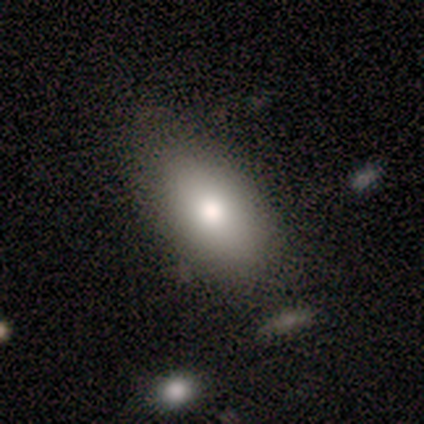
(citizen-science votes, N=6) Smooth or featured: smooth — 100%
How rounded: in between — 100%
Merging: none — 83% (minor disturbance — 17%)